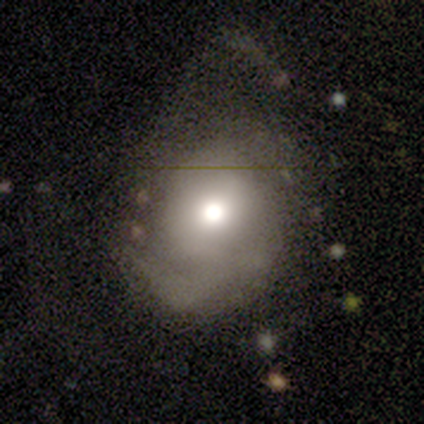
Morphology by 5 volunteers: type=smooth (60%); roundness=round (100%); merging=minor disturbance (60%).